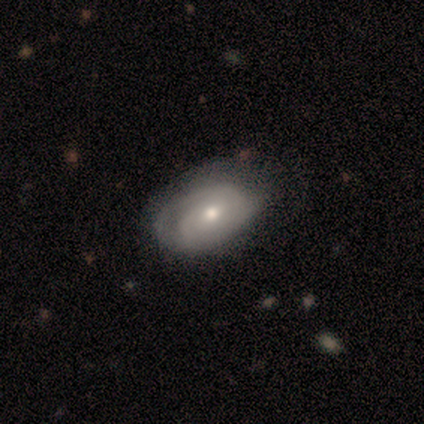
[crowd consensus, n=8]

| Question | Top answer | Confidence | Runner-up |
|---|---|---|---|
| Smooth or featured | featured or disk | 88% | smooth (12%) |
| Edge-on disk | no | 100% | — |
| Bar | no | 100% | — |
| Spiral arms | yes | 57% | no (43%) |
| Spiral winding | tight | 50% | medium (25%) |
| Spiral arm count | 2 | 50% | tied: 3 (50%) |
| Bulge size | moderate | 71% | small (29%) |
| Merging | none | 62% | minor disturbance (25%) |